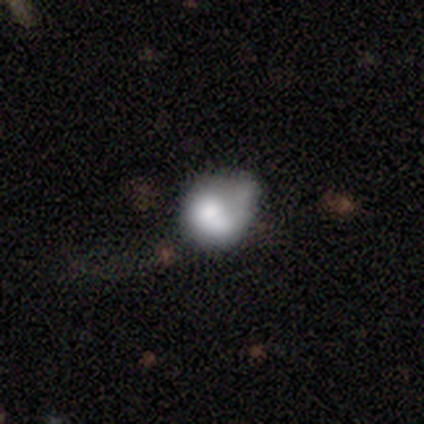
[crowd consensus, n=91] Morphology: type=smooth (60%); roundness=round (67%); merging=minor disturbance (38%).